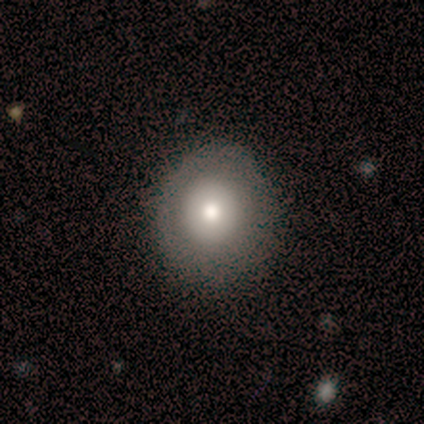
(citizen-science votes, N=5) This is clearly a smooth galaxy (100%). How rounded: clearly round (80%). Merging: likely none (60%).